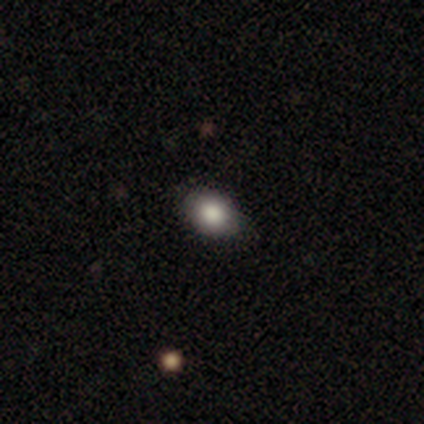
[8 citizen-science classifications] Smooth or featured? 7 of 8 (88%) said smooth. How rounded? 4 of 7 (57%) said in between. Merging? 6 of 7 (86%) said none.